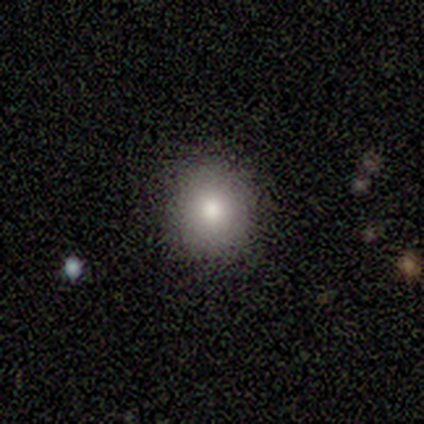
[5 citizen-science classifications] This appears to be a smooth galaxy with no disk features (100%) that is round (80%). Merging: none (100%).